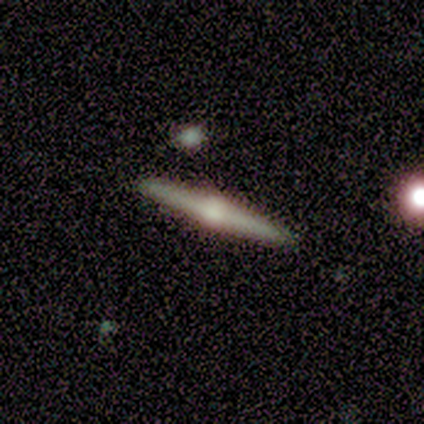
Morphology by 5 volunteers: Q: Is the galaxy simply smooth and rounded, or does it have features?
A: featured or disk — 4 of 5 (80%).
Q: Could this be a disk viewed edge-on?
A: yes — 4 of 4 (100%).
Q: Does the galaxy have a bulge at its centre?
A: rounded — 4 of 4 (100%).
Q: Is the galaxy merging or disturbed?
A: none — 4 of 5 (80%).